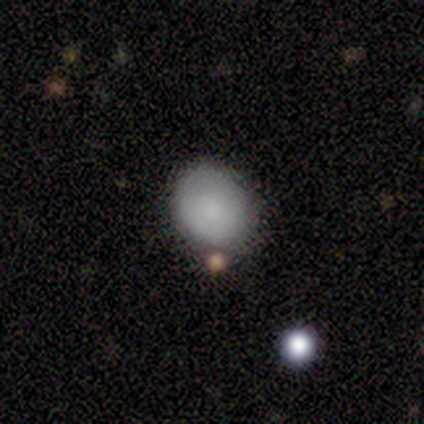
Smooth or featured? 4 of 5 (80%) said smooth. How rounded? 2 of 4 (50%, tied with in between) said round. Merging? 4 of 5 (80%) said none.